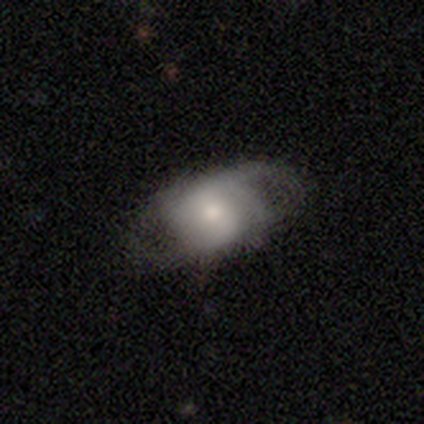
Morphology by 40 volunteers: featured or disk 72%, smooth 28%, star or artifact 0%. Down the decision tree: edge-on disk — no (93%); bar — no (48%); spiral arms — yes (85%); spiral arm count — 2 (65%); spiral winding — medium (43%, tied with loose); bulge size — small (52%); merging — none (40%).